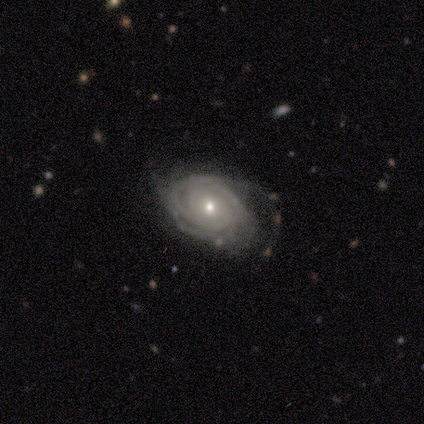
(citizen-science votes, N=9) featured or disk 89%, smooth 11%, star or artifact 0%. Down the decision tree: edge-on disk — no (100%); bar — no (62%); spiral arms — yes (100%); spiral arm count — can't tell (50%); spiral winding — tight (75%); bulge size — moderate (62%); merging — none (44%).